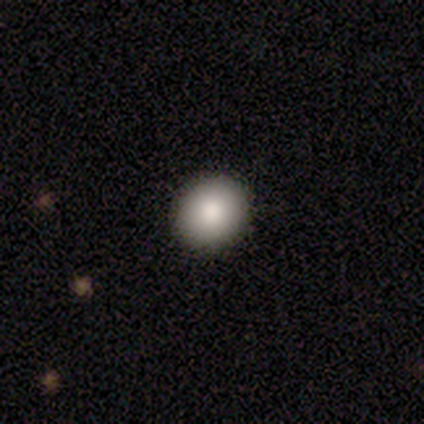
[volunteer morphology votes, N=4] Smooth or featured? smooth (75%)
How rounded? round (33%, tied with in between and cigar-shaped)
Merging? none (100%)